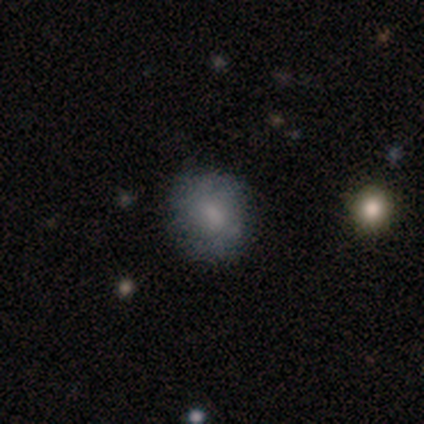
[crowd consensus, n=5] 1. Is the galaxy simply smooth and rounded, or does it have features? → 60% featured or disk, 40% smooth, 0% star or artifact.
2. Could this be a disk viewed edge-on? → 67% no, 33% yes.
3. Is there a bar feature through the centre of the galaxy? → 50% weak (tied), 50% no (tied), 0% strong.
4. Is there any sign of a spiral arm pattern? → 100% no, 0% yes.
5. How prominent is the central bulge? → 50% moderate (tied), 50% small (tied), 0% dominant, 0% large, 0% none.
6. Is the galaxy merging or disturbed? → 60% none, 20% major disturbance, 20% merger, 0% minor disturbance.